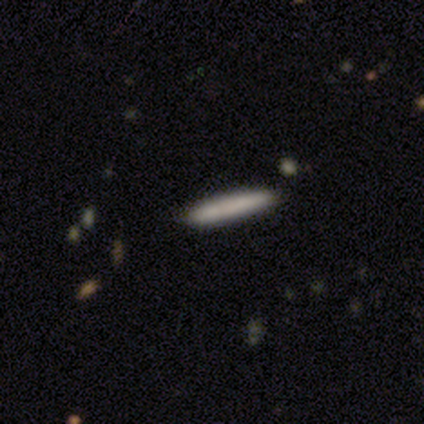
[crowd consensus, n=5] Smooth or featured? smooth (60%)
How rounded? cigar-shaped (100%)
Merging? none (100%)